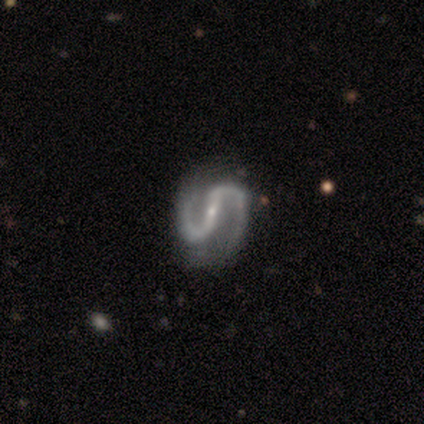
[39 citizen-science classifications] Overall: featured or disk (100%). Edge-on disk: no (100%). Bar: strong (54%; weak 28%). Spiral arms: yes (95%). Spiral arm count: 2 (100%). Spiral winding: medium (46%; loose 43%). Bulge size: small (87%). Merging: none (67%).